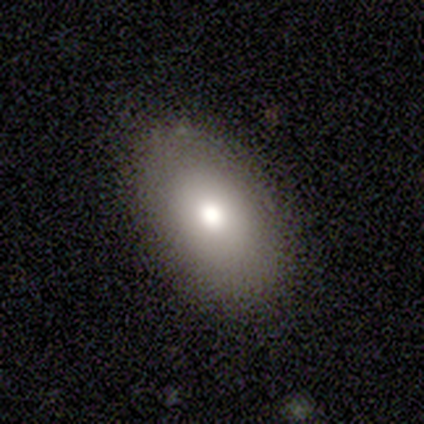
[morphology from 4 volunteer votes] Smooth or featured?
  - smooth: 50% * (tied)
  - featured or disk: 50% * (tied)
  - star or artifact: 0%
How rounded?
  - in between: 100% *
  - round: 0%
  - cigar-shaped: 0%
Merging?
  - none: 100% *
  - minor disturbance: 0%
  - major disturbance: 0%
  - merger: 0%